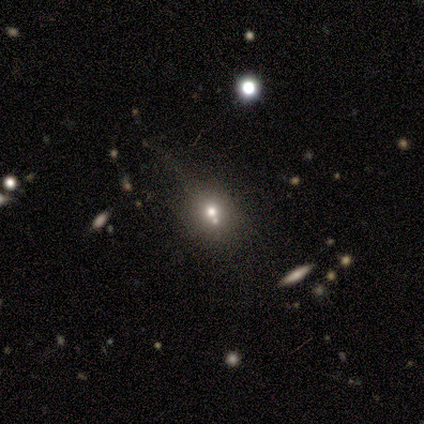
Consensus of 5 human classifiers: Overall: star or artifact (60%; smooth 40%).